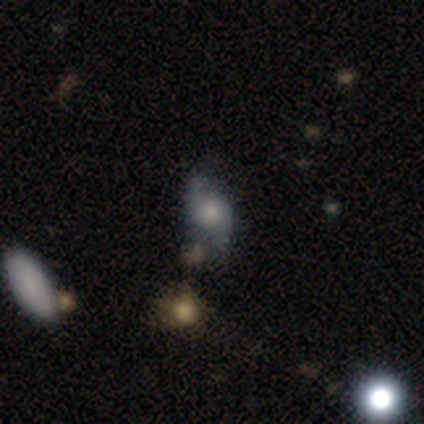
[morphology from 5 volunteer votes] featured or disk 60%, smooth 20%, star or artifact 20%. Down the decision tree: edge-on disk — no (100%); bar — no (100%); spiral arms — yes (100%); spiral arm count — 2 (100%); spiral winding — loose (100%); bulge size — dominant (33%, tied with large and small); merging — none (50%).